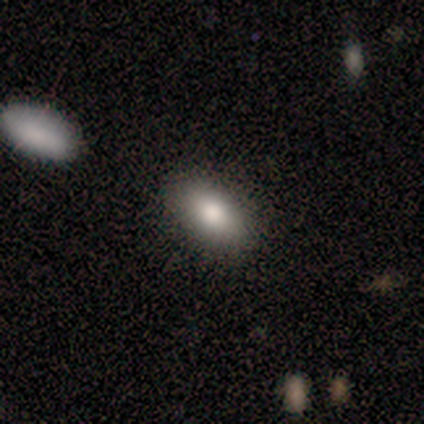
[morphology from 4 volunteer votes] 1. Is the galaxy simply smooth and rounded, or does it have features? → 75% smooth, 25% featured or disk, 0% star or artifact.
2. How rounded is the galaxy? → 100% in between, 0% round, 0% cigar-shaped.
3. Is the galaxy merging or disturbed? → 50% none (tied), 50% minor disturbance (tied), 0% major disturbance, 0% merger.